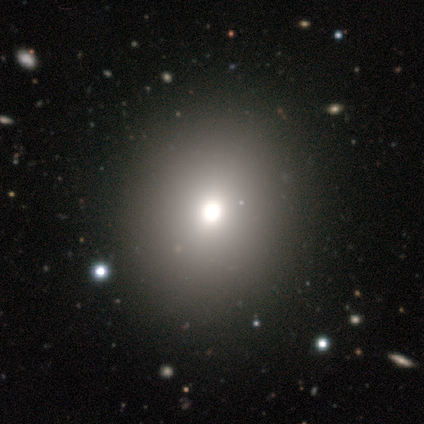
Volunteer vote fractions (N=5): Smooth or featured?
  - smooth: 60% *
  - featured or disk: 20%
  - star or artifact: 20%
How rounded?
  - round: 67% *
  - in between: 33%
  - cigar-shaped: 0%
Merging?
  - none: 100% *
  - minor disturbance: 0%
  - major disturbance: 0%
  - merger: 0%